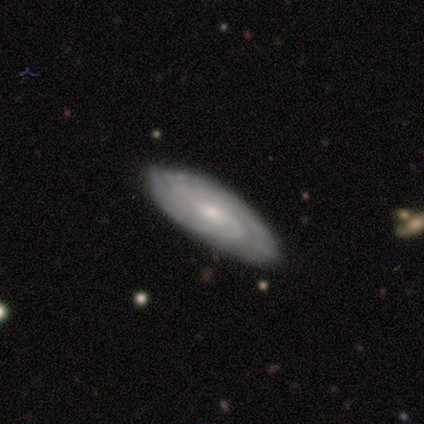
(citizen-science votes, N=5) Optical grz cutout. It shows a featured or disk galaxy (80%) with no bar (75%), tight (50%, tied with medium) spiral arms (100%) and a small central bulge (75%). Merging: none (100%).